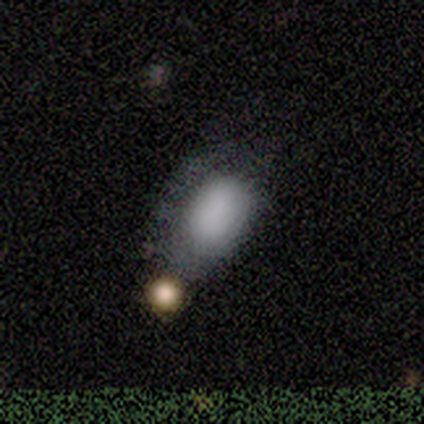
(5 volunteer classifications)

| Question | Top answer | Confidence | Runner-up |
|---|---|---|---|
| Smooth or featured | smooth | 100% | — |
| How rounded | in between | 100% | — |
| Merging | minor disturbance | 40% | none (20%) |